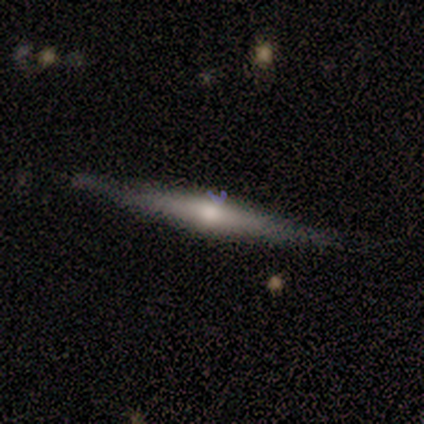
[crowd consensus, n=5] This is clearly a featured or disk galaxy (80%). It is clearly viewed edge-on (100%). Edge-on bulge: clearly rounded (100%). Merging: likely none (60%).